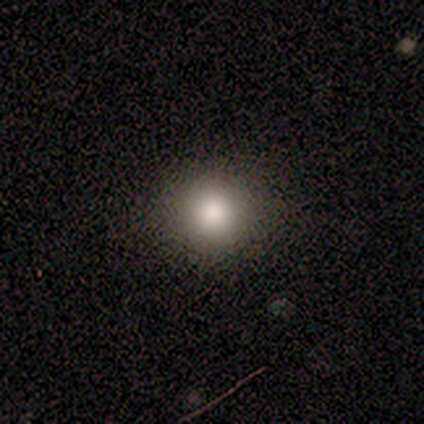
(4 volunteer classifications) Morphology: type=smooth (75%); roundness=round (100%); merging=none (100%).